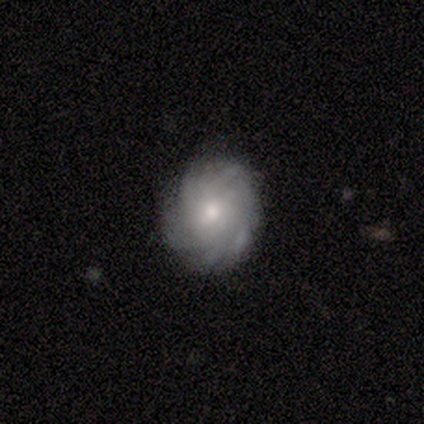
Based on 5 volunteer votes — smooth-or-featured: featured or disk: 80% | smooth: 20% | star or artifact: 0%
  disk-edge-on: no: 100% | yes: 0%
    bar: weak: 75% | no: 25% | strong: 0%
    has-spiral-arms: yes: 100% | no: 0%
      spiral-winding: tight: 75% | medium: 25% | loose: 0%
      spiral-arm-count: more than 4: 50% (tied) | can't tell: 50% (tied) | 1: 0% | 2: 0% | 3: 0% | 4: 0%
    bulge-size: moderate: 50% (tied) | small: 50% (tied) | dominant: 0% | large: 0% | none: 0%
  merging: none: 80% | minor disturbance: 20% | major disturbance: 0% | merger: 0%